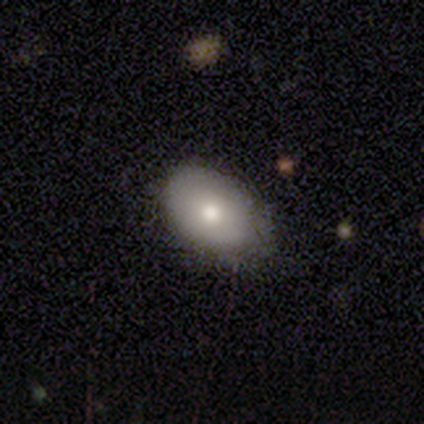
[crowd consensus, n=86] A smooth galaxy with no disk features (67%) that is in between round and cigar-shaped (91%). Merging: none (72%).